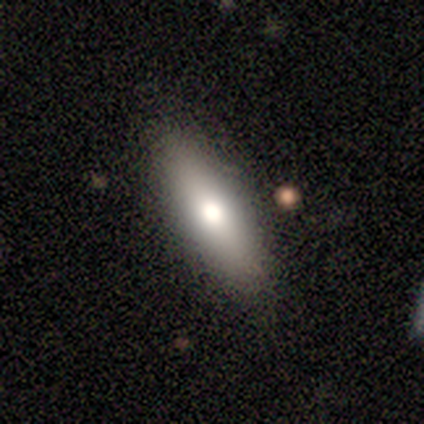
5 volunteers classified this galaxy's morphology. A smooth galaxy with no disk features (60%) that is in between round and cigar-shaped (67%).

Vote fractions:
- Smooth or featured? smooth: 60% / featured or disk: 40% / star or artifact: 0%
- How rounded? in between: 67% / cigar-shaped: 33% / round: 0%
- Merging? none: 80% / minor disturbance: 20% / major disturbance: 0% / merger: 0%